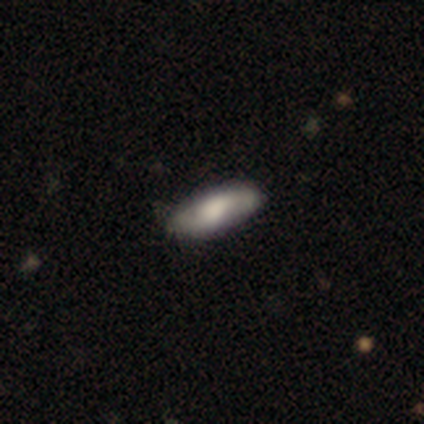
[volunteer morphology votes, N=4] This is possibly a featured or disk galaxy (50%). It is clearly viewed edge-on (100%). Edge-on bulge: clearly rounded (100%). Merging: clearly none (100%).